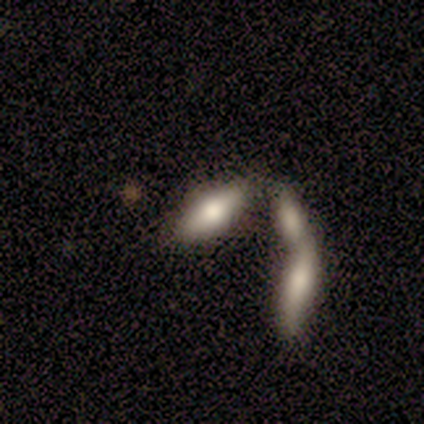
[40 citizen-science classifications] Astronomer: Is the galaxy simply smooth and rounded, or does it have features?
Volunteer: smooth — 75%.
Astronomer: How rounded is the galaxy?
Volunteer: in between — 83%.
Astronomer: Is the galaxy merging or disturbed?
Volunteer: merger — 51% (runner-up: none, 33%).